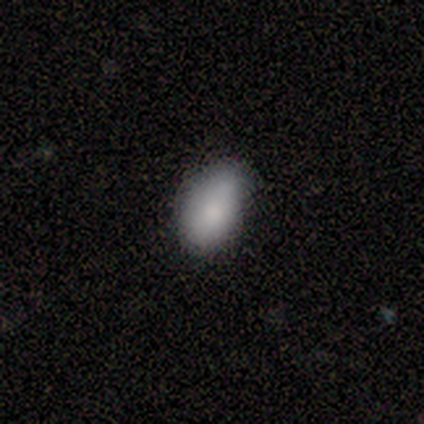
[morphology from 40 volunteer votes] A smooth galaxy with no disk features (85%) that is in between round and cigar-shaped (88%). Merging: none (68%).